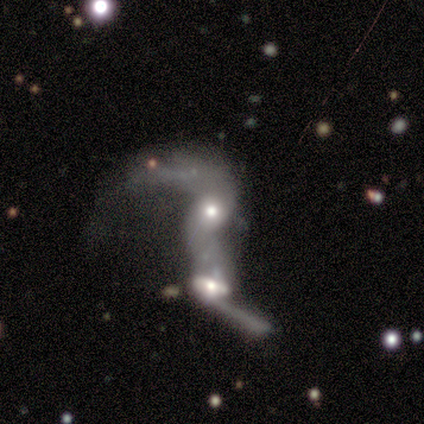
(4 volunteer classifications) Overall: featured or disk (75%). Edge-on disk: no (100%). Bar: no (67%; weak 33%). Spiral arms: yes (67%; no 33%). Spiral arm count: 2 (100%). Spiral winding: loose (100%). Bulge size: moderate (100%). Merging: merger (100%).